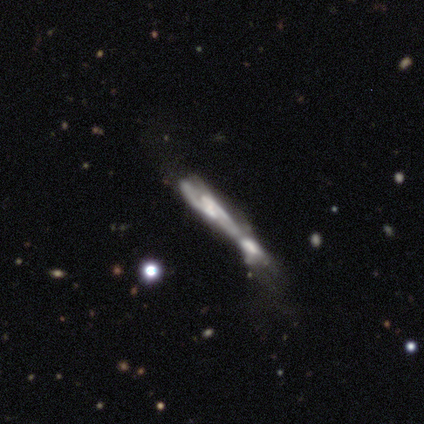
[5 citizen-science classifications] This is clearly a featured or disk galaxy (100%). It is clearly not viewed edge-on (80%). Bar: likely weak (75%). Spiral arm pattern: clearly yes (100%). Spiral arm count: likely 2 (75%). Spiral winding: likely medium (75%). Central bulge: possibly small (50%, tied with none). Merging: clearly merger (80%).